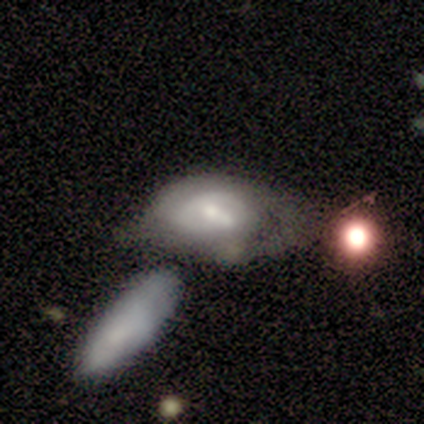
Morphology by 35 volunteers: Smooth or featured? 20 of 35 (57%) said featured or disk. Edge-on disk? 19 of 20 (95%) said no. Bar? 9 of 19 (47%) said no. Spiral arms? 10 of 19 (53%) said yes. Spiral winding? 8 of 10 (80%) said tight. Spiral arm count? 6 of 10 (60%) said can't tell. Bulge size? 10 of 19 (53%) said small. Merging? 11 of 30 (37%, tied with merger) said major disturbance.